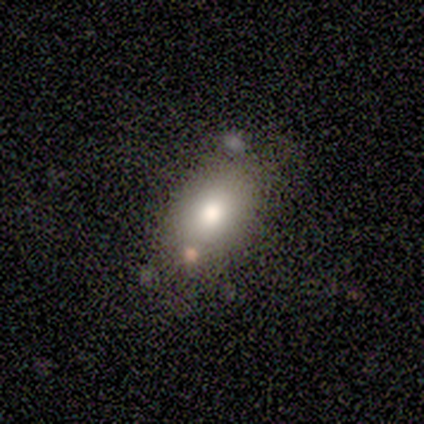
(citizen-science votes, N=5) smooth_or_featured: smooth (p=0.60) [alt: featured or disk p=0.20]
how_rounded: in between (p=1.00)
merging: none (p=0.50) [tied with: minor disturbance p=0.50]